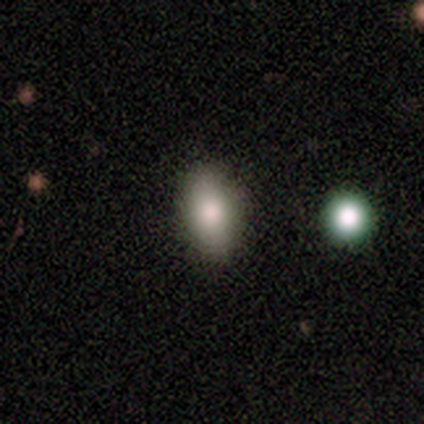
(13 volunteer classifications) Morphology: type=smooth (77%); roundness=in between (80%); merging=none (92%).